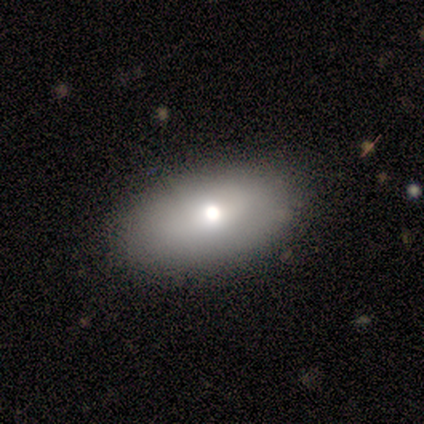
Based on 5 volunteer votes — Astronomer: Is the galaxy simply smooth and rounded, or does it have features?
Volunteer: smooth — 60% (runner-up: star or artifact, 40%).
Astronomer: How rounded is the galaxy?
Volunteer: in between — 100%.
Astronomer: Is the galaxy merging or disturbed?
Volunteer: none — 100%.